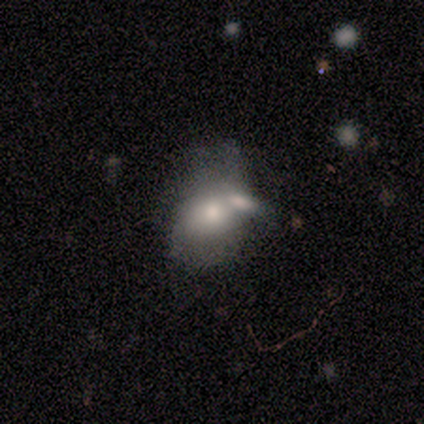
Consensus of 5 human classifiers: This is likely a smooth galaxy (60%). How rounded: likely in between (67%). Merging: clearly merger (80%).